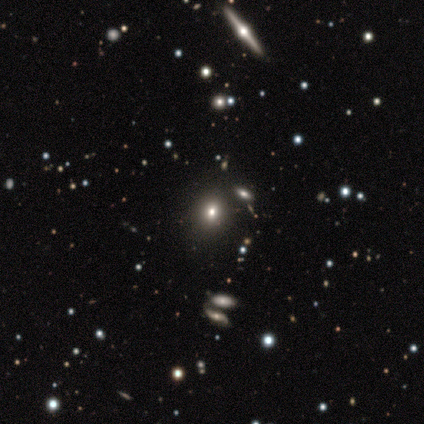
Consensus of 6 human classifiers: smooth 50%, star or artifact 33%, featured or disk 17%. Down the decision tree: how rounded — round (67%); merging — none (75%).